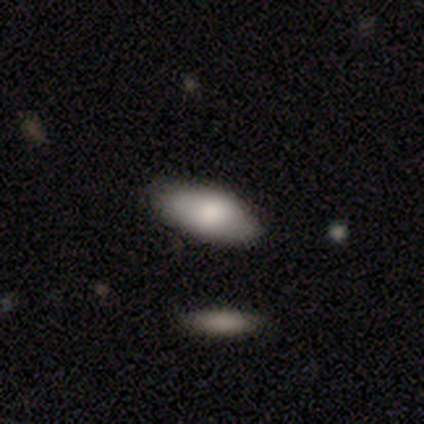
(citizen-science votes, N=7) Volunteers were most divided on "smooth or featured": smooth: 71%, featured or disk: 14%, star or artifact: 14%. More confident: how rounded — in between (100%); merging — none (83%).